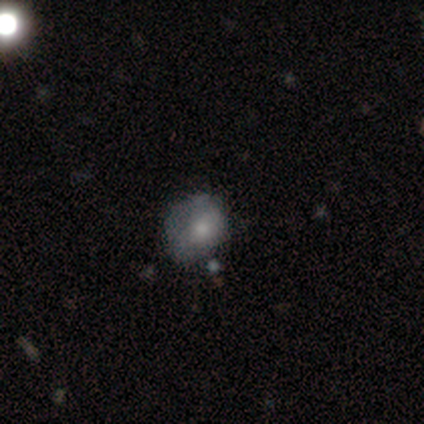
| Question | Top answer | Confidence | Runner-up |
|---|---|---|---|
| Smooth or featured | smooth | 75% | featured or disk (25%) |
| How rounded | round | 67% | in between (33%) |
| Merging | minor disturbance | 50% | none (25%) |